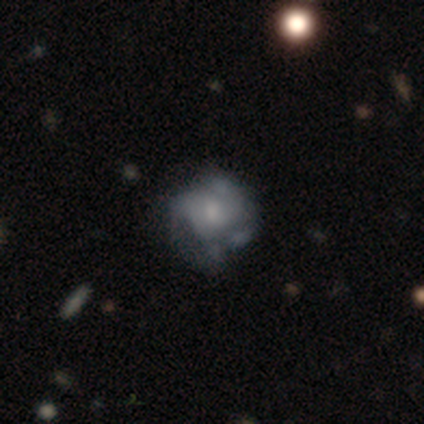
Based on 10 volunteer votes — smooth-or-featured: featured or disk: 60% | smooth: 40% | star or artifact: 0%
  disk-edge-on: no: 100% | yes: 0%
    bar: no: 83% | weak: 17% | strong: 0%
    has-spiral-arms: no: 67% | yes: 33%
    bulge-size: small: 33% (tied) | none: 33% (tied) | large: 17% | moderate: 17% | dominant: 0%
  merging: major disturbance: 40% | none: 30% | minor disturbance: 20% | merger: 10%